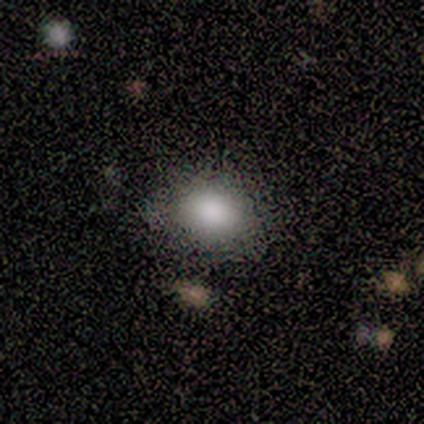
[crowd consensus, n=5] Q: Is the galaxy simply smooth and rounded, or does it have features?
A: smooth — 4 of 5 (80%).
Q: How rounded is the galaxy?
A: in between — 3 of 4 (75%).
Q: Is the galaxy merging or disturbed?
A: none — 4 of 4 (100%).